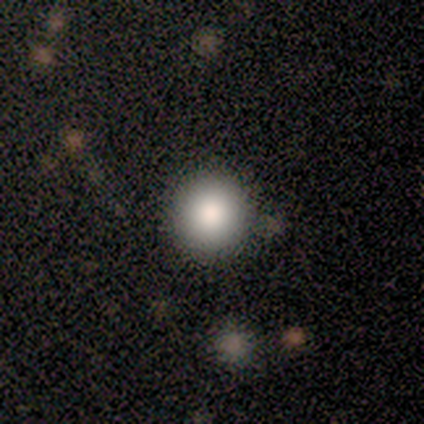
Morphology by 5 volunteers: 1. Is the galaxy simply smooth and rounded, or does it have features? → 100% smooth, 0% featured or disk, 0% star or artifact.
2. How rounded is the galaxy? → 100% round, 0% in between, 0% cigar-shaped.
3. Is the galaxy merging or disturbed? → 100% none, 0% minor disturbance, 0% major disturbance, 0% merger.